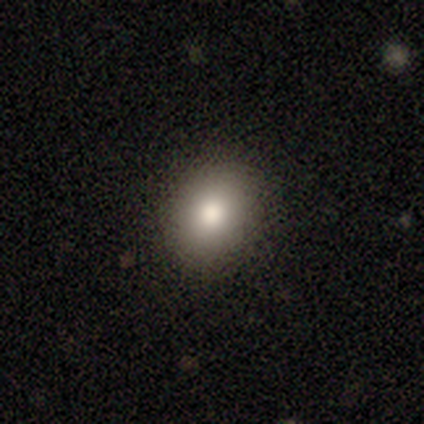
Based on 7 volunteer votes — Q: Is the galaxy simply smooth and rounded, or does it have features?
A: smooth — 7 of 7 (100%).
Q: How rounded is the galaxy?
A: in between — 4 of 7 (57%).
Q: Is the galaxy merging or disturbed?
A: none — 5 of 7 (71%).